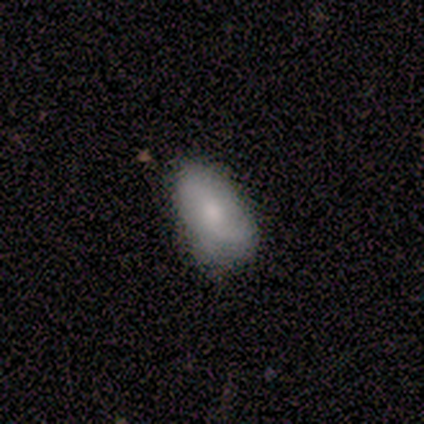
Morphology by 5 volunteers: Overall: smooth (80%). How rounded: in between (100%). Merging: none (50%; minor disturbance 25%).